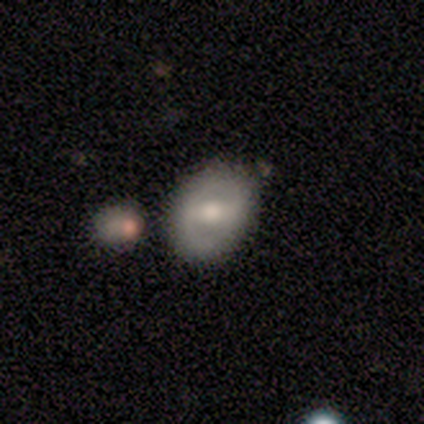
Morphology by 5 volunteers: Volunteers were most divided on "smooth or featured": featured or disk: 60%, smooth: 40%, star or artifact: 0%. More confident: edge-on disk — no (100%); bar — weak (67%); spiral arms — no (67%); bulge size — large (67%); merging — minor disturbance (60%).